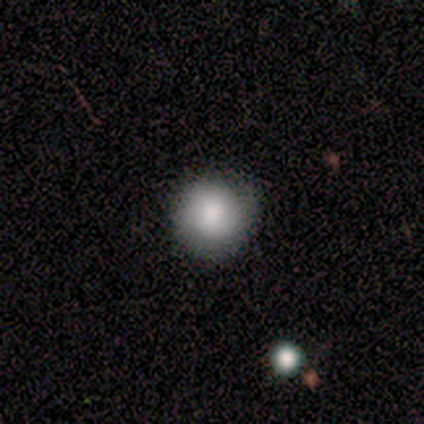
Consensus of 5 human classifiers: Morphology: type=smooth (80%); roundness=round (100%); merging=none (100%).